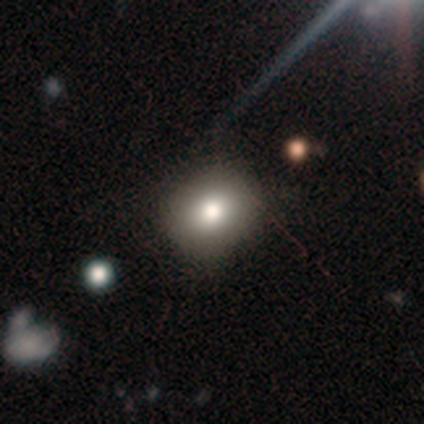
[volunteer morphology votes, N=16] Smooth or featured?
  - smooth: 81% *
  - featured or disk: 12%
  - star or artifact: 6%
How rounded?
  - round: 69% *
  - in between: 31%
  - cigar-shaped: 0%
Merging?
  - none: 100% *
  - minor disturbance: 0%
  - major disturbance: 0%
  - merger: 0%